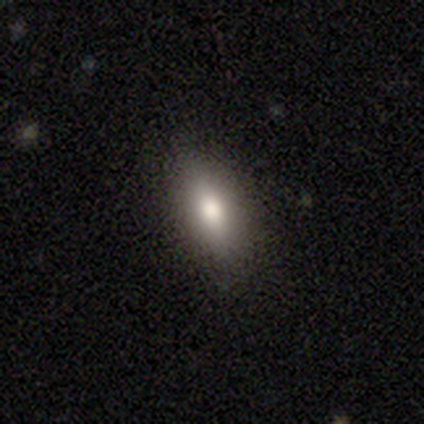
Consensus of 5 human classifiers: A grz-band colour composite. It shows a smooth galaxy with no disk features (40%, tied with featured or disk) that is in between round and cigar-shaped (100%). Merging: none (100%).